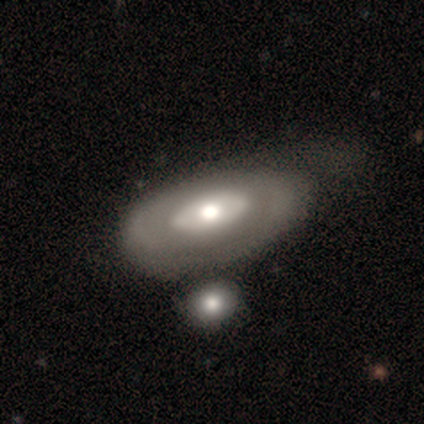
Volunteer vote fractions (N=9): featured or disk 78%, smooth 11%, star or artifact 11%. Down the decision tree: edge-on disk — no (100%); bar — no (57%); spiral arms — no (100%); bulge size — large (43%, tied with moderate); merging — none (38%).